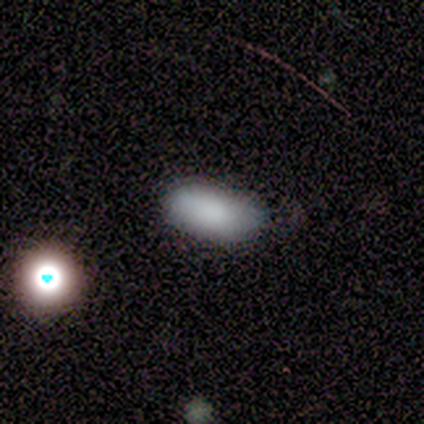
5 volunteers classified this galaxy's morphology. Smooth or featured? 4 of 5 (80%) said smooth. How rounded? 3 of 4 (75%) said in between. Merging? 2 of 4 (50%) said none.